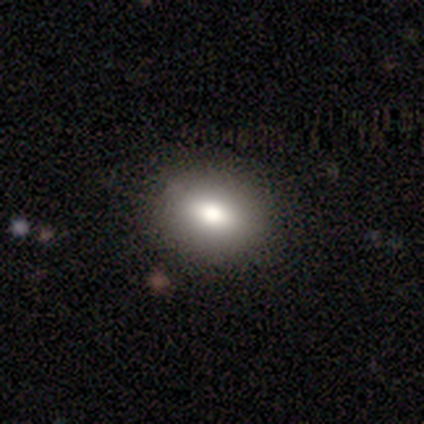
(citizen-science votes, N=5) Volunteers were most divided on "smooth or featured": smooth: 60%, featured or disk: 40%, star or artifact: 0%. More confident: merging — none (100%); how rounded — in between (67%).